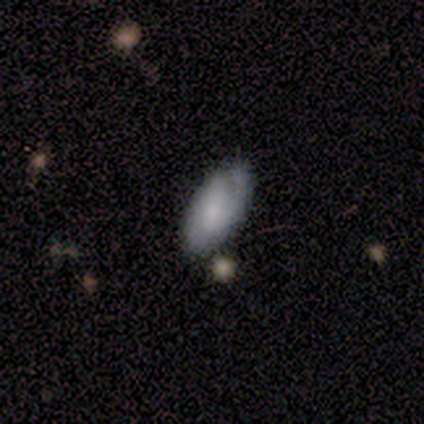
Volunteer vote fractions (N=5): Overall: smooth (60%; featured or disk 40%). How rounded: in between (67%; cigar-shaped 33%). Merging: none (80%).